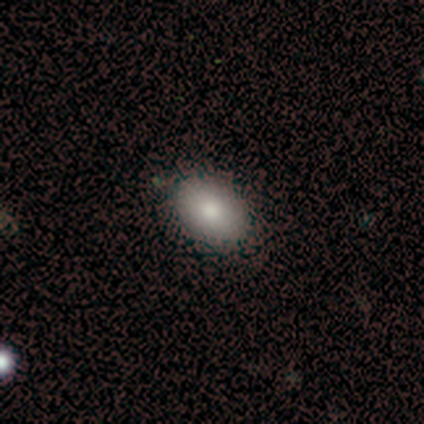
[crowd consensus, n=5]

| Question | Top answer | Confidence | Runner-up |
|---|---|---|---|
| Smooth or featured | smooth | 60% | featured or disk (40%) |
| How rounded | in between | 100% | — |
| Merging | none | 100% | — |